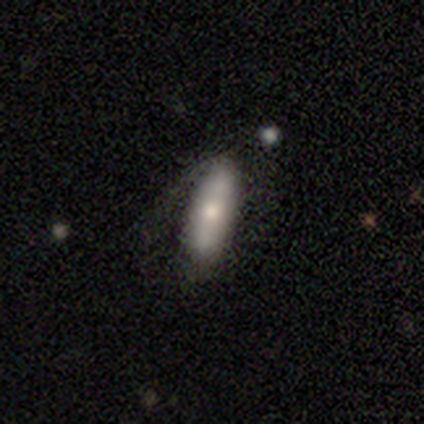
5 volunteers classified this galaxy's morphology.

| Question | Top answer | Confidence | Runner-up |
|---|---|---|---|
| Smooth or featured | smooth | 80% | featured or disk (20%) |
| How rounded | in between | 75% | cigar-shaped (25%) |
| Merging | none | 80% | major disturbance (20%) |